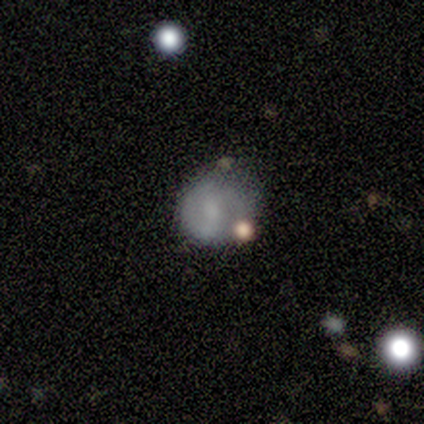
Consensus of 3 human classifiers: Smooth or featured? 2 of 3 (67%) said featured or disk. Edge-on disk? 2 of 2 (100%) said no. Bar? 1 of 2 (50%, tied with no) said weak. Spiral arms? 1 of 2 (50%, tied with no) said yes. Spiral winding? 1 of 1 (100%) said tight. Spiral arm count? 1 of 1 (100%) said 2. Bulge size? 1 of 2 (50%, tied with none) said small. Merging? 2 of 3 (67%) said none.